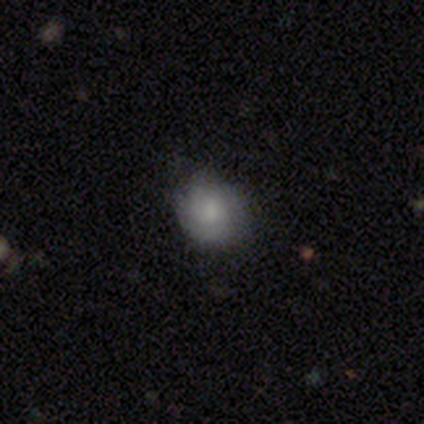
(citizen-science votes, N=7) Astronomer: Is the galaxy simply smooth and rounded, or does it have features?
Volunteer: smooth — 71%.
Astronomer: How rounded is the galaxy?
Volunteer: round — 80%.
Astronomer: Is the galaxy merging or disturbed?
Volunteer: none — 86%.